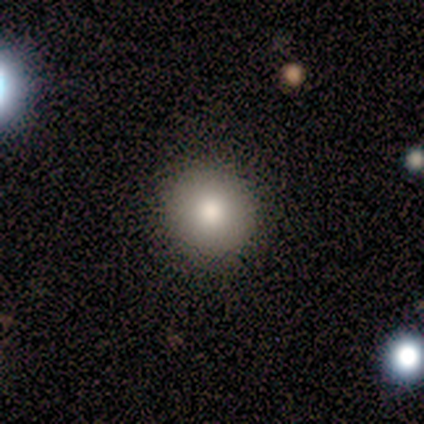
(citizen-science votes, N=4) Q: Smooth or featured?
A: smooth (75%); runner-up: star or artifact (25%)
Q: How rounded?
A: round (100%)
Q: Merging?
A: none (100%)